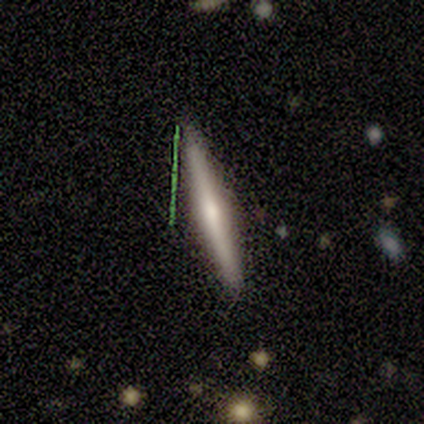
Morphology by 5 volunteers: Smooth or featured? 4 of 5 (80%) said featured or disk. Edge-on disk? 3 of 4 (75%) said yes. Edge-on bulge? 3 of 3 (100%) said rounded. Merging? 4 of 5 (80%) said none.